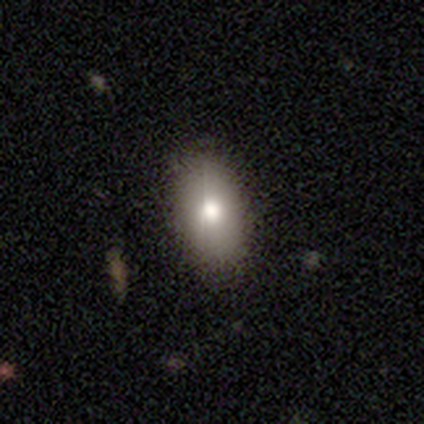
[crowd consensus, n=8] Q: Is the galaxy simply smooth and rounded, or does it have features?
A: smooth — 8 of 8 (100%).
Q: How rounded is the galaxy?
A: in between — 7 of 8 (88%).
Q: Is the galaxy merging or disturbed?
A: none — 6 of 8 (75%).